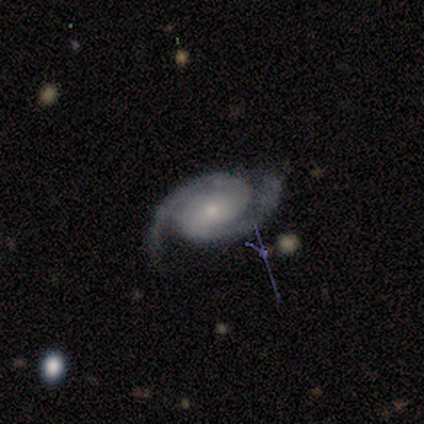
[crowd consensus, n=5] This appears to be a featured or disk galaxy (100%) with no bar (80%), 2 (100%) medium (60%) spiral arms (100%) and a small central bulge (100%). Merging: none (80%).